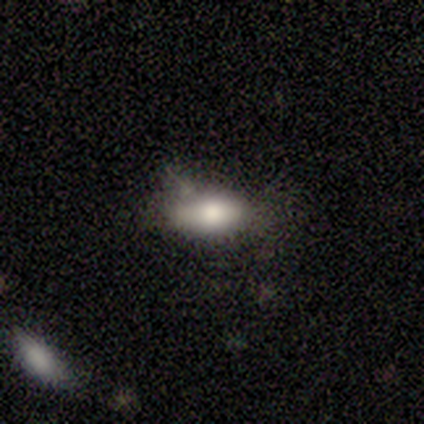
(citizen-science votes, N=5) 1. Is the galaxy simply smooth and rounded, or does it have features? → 60% smooth, 20% featured or disk, 20% star or artifact.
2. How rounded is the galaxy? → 67% in between, 33% cigar-shaped, 0% round.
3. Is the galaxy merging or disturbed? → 75% none, 25% minor disturbance, 0% major disturbance, 0% merger.